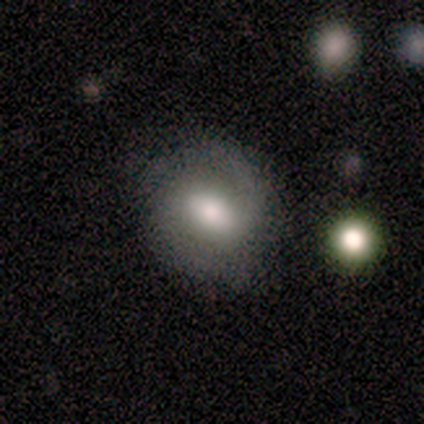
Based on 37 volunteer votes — Volunteers were most divided on "how rounded": round: 57%, in between: 43%, cigar-shaped: 0%. More confident: smooth or featured — smooth (62%); merging — none (57%).